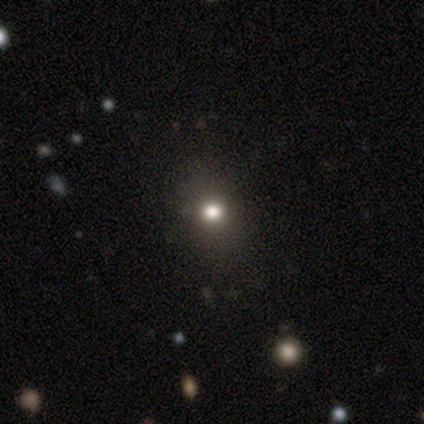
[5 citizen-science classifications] Morphology: type=smooth (80%); roundness=round (50%, tied with in between); merging=none (100%).